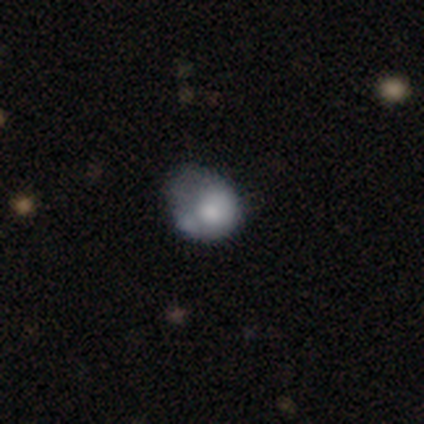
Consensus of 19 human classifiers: A smooth galaxy with no disk features (53%) that is round (60%). Merging: minor disturbance (37%).